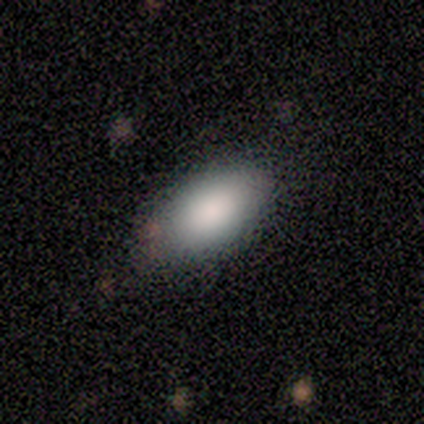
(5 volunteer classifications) This appears to be a smooth galaxy with no disk features (100%) that is in between round and cigar-shaped (100%). Merging: minor disturbance (60%).